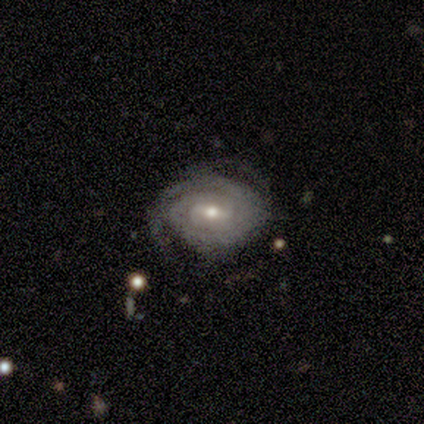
Smooth or featured? featured or disk (100%)
Edge-on disk? no (100%)
Bar? no (100%)
Spiral arms? yes (100%)
Spiral winding? tight (50%, tied with medium)
Spiral arm count? can't tell (100%)
Bulge size? moderate (50%, tied with small)
Merging? none (100%)